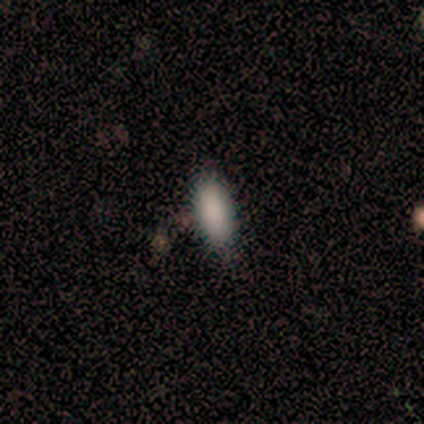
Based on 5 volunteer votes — This is clearly a smooth galaxy (100%). How rounded: clearly in between (80%). Merging: likely none (60%).